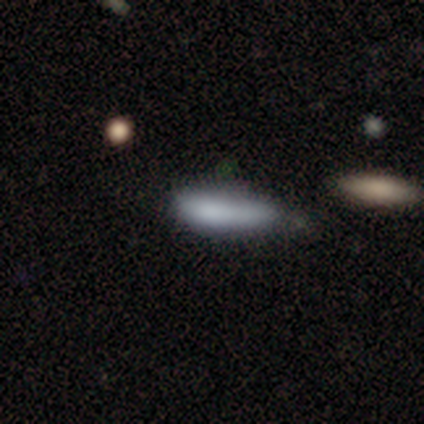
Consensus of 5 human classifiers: Smooth or featured?
  - smooth: 100% *
  - featured or disk: 0%
  - star or artifact: 0%
How rounded?
  - in between: 80% *
  - cigar-shaped: 20%
  - round: 0%
Merging?
  - minor disturbance: 80% *
  - none: 20%
  - major disturbance: 0%
  - merger: 0%